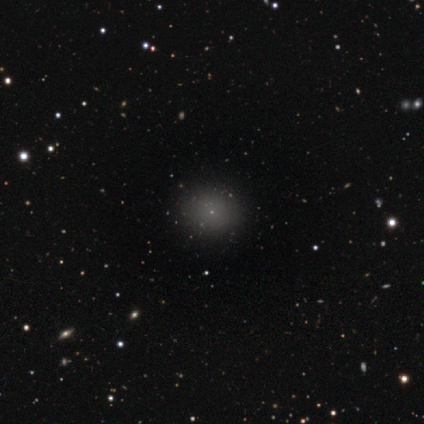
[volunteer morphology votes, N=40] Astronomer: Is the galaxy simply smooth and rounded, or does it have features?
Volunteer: smooth — 55% (runner-up: star or artifact, 35%).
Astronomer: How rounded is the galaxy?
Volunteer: round — 77%.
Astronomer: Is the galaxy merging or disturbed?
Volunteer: none — 92%.